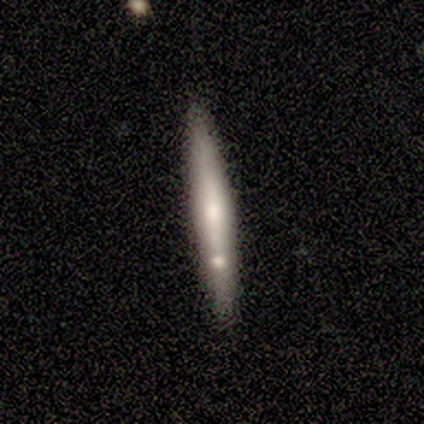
Q: Smooth or featured?
A: featured or disk (60%); runner-up: smooth (40%)
Q: Edge-on disk?
A: yes (67%); runner-up: no (33%)
Q: Edge-on bulge?
A: none (50%); tied with: rounded (50%)
Q: Merging?
A: none (90%); runner-up: minor disturbance (10%)